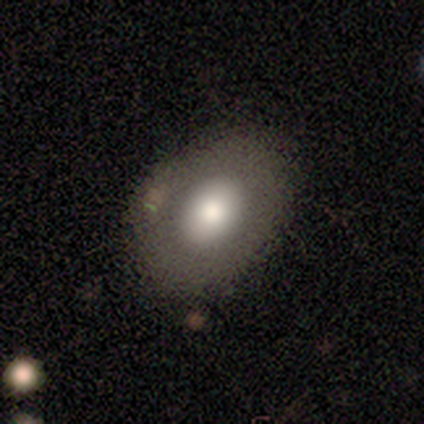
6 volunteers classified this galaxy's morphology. This is possibly a smooth galaxy (50%, tied with featured or disk). How rounded: clearly in between (100%). Merging: possibly none (50%, tied with minor disturbance).